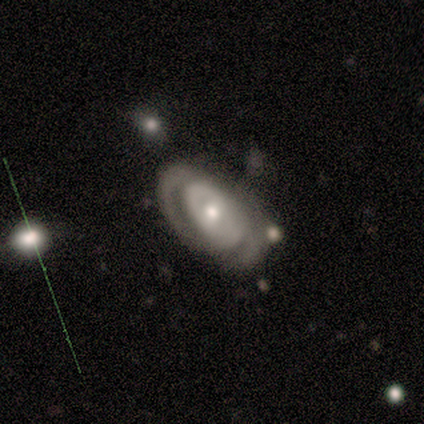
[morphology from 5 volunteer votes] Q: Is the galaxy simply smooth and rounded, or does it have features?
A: featured or disk — 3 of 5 (60%).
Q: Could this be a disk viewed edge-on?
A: no — 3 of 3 (100%).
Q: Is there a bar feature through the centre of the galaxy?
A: no — 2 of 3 (67%).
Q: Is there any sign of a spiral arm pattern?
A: no — 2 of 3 (67%).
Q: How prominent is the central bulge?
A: moderate — 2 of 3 (67%).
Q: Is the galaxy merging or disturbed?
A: none — 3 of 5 (60%).